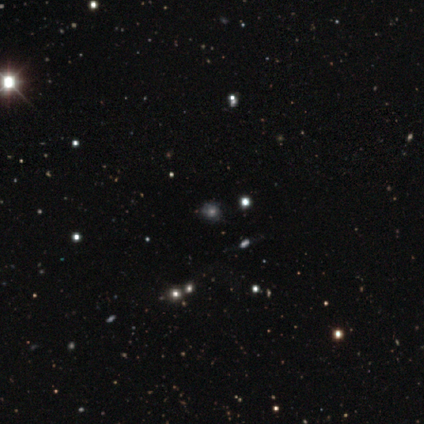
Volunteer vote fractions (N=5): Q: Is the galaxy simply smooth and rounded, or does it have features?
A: smooth — 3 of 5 (60%).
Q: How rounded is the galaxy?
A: round — 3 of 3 (100%).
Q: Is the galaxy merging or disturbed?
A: none — 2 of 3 (67%).